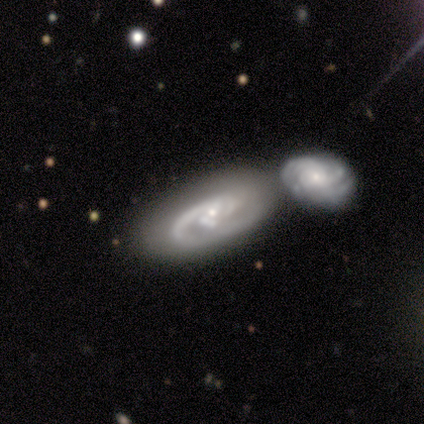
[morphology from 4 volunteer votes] Volunteers were most divided on "smooth or featured" (2-way tie): smooth: 50%, featured or disk: 50%, star or artifact: 0%. More confident: how rounded — in between (100%); merging — merger (75%).